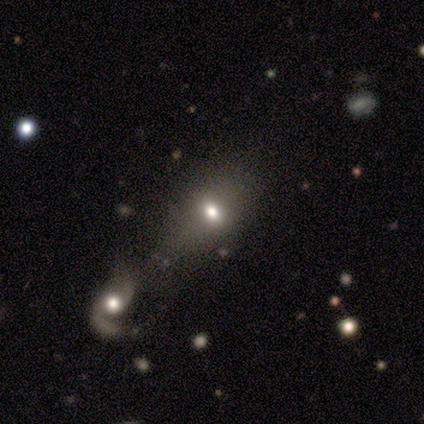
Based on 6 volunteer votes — A smooth galaxy with no disk features (83%) that is in between round and cigar-shaped (100%). Merging: merger (50%).